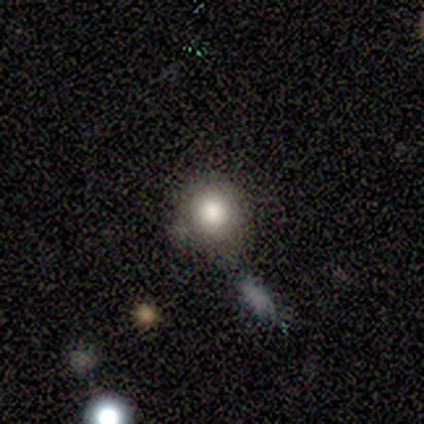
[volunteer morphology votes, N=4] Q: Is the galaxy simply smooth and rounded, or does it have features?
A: smooth — 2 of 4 (50%, tied with star or artifact).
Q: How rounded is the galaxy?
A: round — 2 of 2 (100%).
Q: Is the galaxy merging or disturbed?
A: none — 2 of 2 (100%).